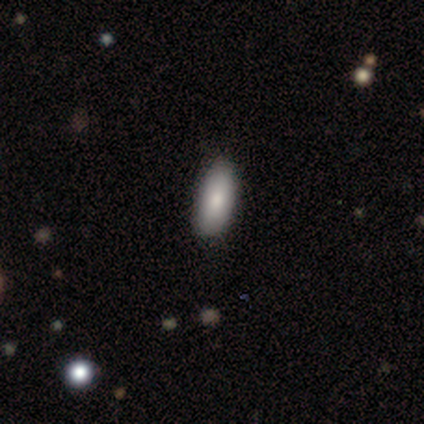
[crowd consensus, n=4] This is likely a smooth galaxy (75%). How rounded: clearly in between (100%). Merging: clearly none (100%).